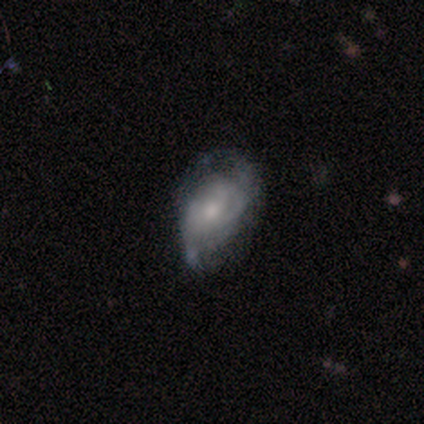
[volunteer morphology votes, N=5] This is clearly a featured or disk galaxy (100%). It is clearly not viewed edge-on (100%). Bar: clearly no (80%). Spiral arm pattern: likely yes (60%). Spiral arm count: likely 2 (67%). Spiral winding: likely tight (67%). Central bulge: likely small (60%). Merging: likely none (60%).